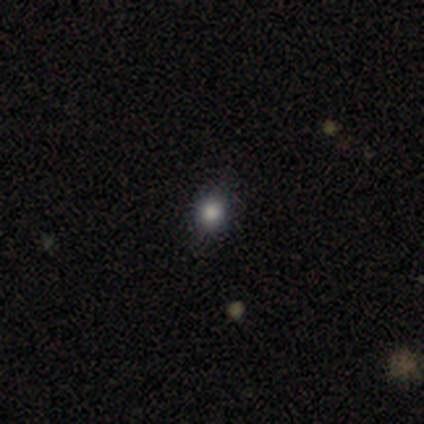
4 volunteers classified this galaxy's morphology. Overall: smooth (75%). How rounded: round (67%; in between 33%). Merging: none (100%).